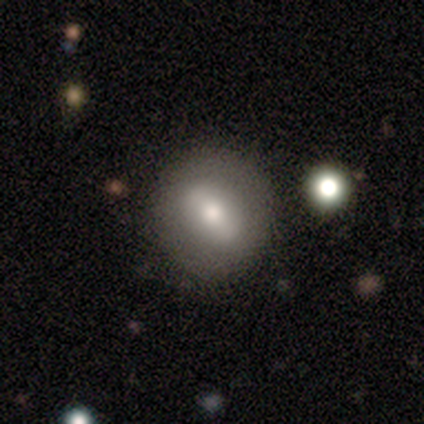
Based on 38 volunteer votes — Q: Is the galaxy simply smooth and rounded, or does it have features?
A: smooth — 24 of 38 (63%).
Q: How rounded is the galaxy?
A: round — 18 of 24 (75%).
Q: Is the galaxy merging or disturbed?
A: none — 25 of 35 (71%).